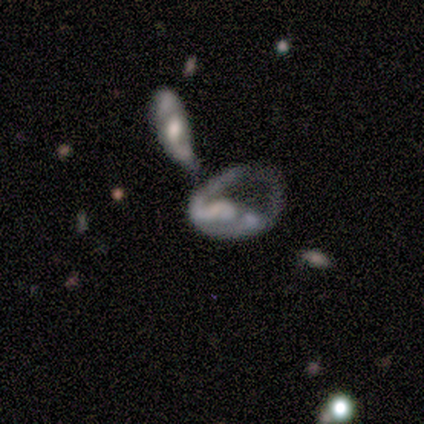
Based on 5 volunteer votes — Smooth or featured? featured or disk (100%)
Edge-on disk? no (100%)
Bar? no (80%)
Spiral arms? yes (60%)
Spiral winding? loose (67%)
Spiral arm count? 1 (100%)
Bulge size? none (40%)
Merging? merger (60%)